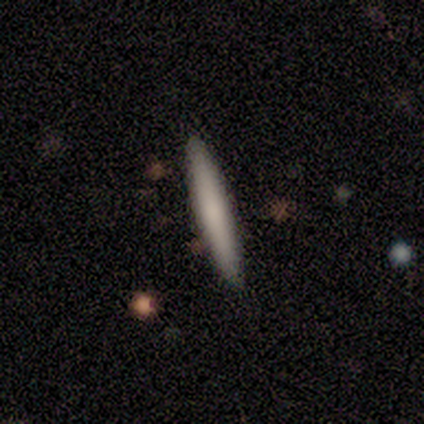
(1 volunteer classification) Overall: smooth (100%). How rounded: cigar-shaped (100%). Merging: none (100%).